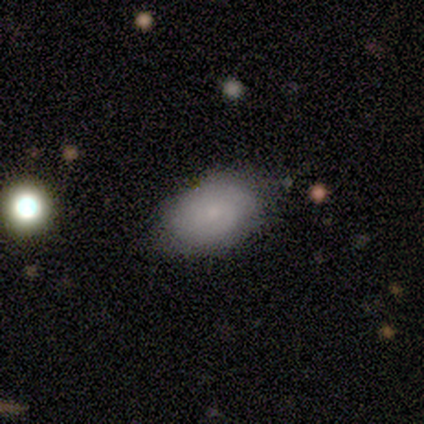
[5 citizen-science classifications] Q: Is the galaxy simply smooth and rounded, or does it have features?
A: smooth — 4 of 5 (80%).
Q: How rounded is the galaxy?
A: in between — 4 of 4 (100%).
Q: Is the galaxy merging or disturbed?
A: none — 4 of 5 (80%).